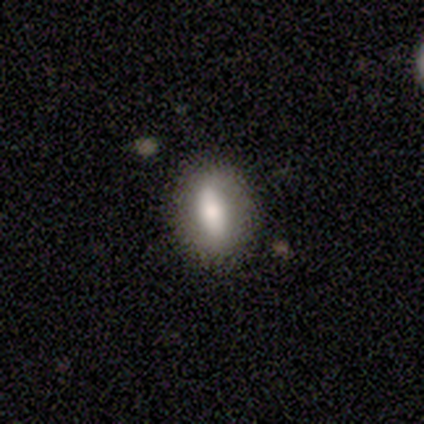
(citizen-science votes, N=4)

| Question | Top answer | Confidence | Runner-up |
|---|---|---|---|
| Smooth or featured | featured or disk | 75% | smooth (25%) |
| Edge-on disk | no | 100% | — |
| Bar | no | 100% | — |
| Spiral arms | no | 100% | — |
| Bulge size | small | 67% | moderate (33%) |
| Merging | none | 75% | minor disturbance (25%) |